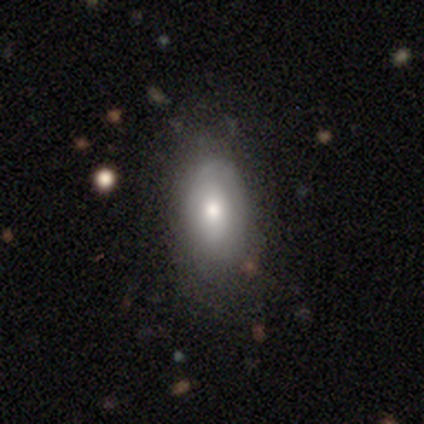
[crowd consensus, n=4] Morphology: type=smooth (100%); roundness=in between (100%); merging=none (75%).